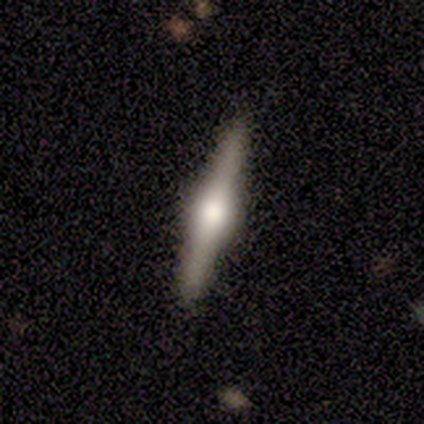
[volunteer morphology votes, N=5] Q: Smooth or featured?
A: featured or disk (100%)
Q: Edge-on disk?
A: yes (100%)
Q: Edge-on bulge?
A: rounded (100%)
Q: Merging?
A: none (100%)